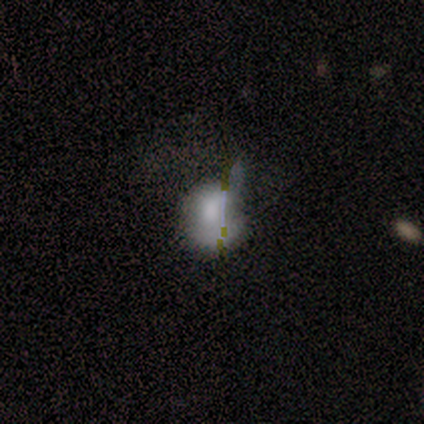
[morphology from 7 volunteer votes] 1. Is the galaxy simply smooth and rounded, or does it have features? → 43% smooth (tied), 43% star or artifact (tied), 14% featured or disk.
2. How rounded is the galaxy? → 67% round, 33% cigar-shaped, 0% in between.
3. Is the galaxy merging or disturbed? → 25% none (tied), 25% minor disturbance (tied), 25% major disturbance (tied), 25% merger (tied).